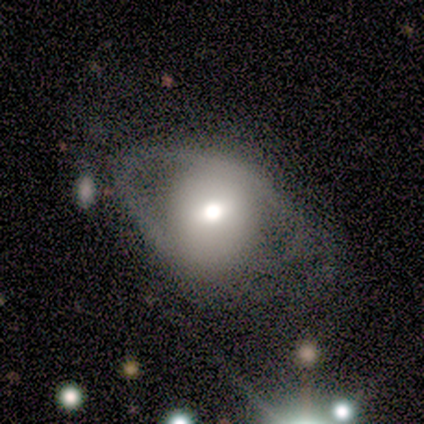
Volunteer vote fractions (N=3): Smooth or featured?
  - smooth: 67% *
  - featured or disk: 33%
  - star or artifact: 0%
How rounded?
  - in between: 100% *
  - round: 0%
  - cigar-shaped: 0%
Merging?
  - none: 67% *
  - merger: 33%
  - minor disturbance: 0%
  - major disturbance: 0%